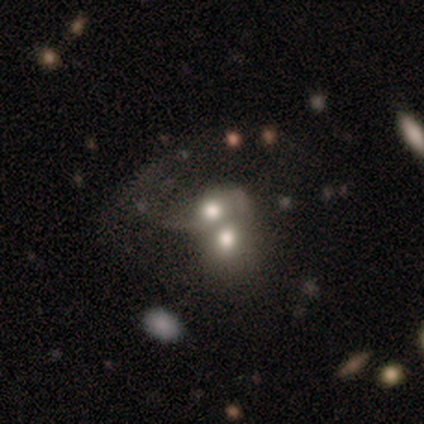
Q: Smooth or featured?
A: smooth (57%); runner-up: featured or disk (37%)
Q: How rounded?
A: round (51%); runner-up: in between (47%)
Q: Merging?
A: merger (64%); runner-up: minor disturbance (5%)